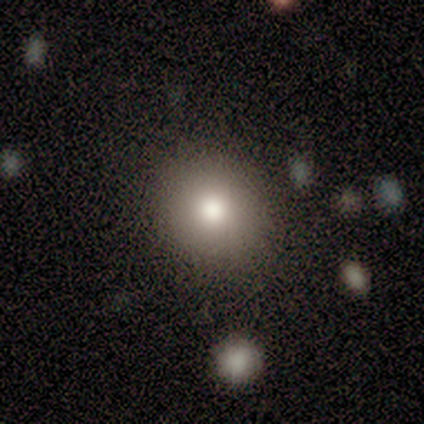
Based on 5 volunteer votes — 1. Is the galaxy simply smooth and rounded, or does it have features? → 100% smooth, 0% featured or disk, 0% star or artifact.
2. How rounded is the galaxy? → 100% round, 0% in between, 0% cigar-shaped.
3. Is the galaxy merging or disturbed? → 100% none, 0% minor disturbance, 0% major disturbance, 0% merger.